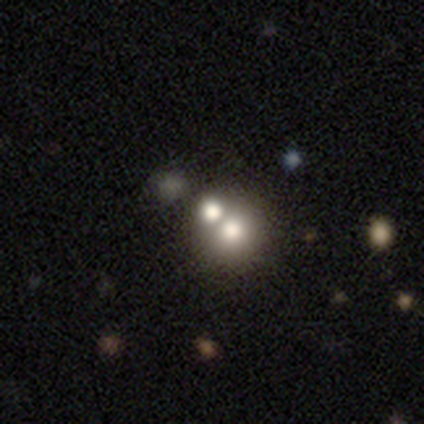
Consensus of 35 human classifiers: Volunteers were most divided on "smooth or featured": smooth: 63%, star or artifact: 31%, featured or disk: 6%. More confident: how rounded — round (86%); merging — merger (71%).